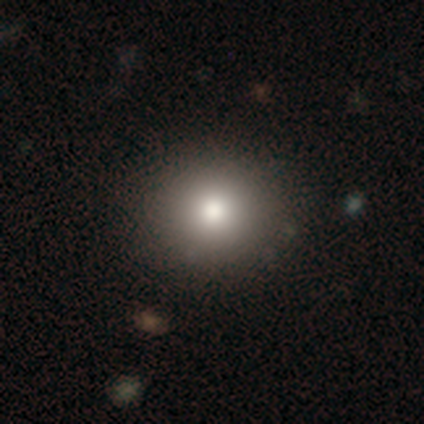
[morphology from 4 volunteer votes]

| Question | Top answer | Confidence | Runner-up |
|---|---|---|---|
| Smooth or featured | smooth | 100% | — |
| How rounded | round | 75% | in between (25%) |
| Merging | none | 100% | — |